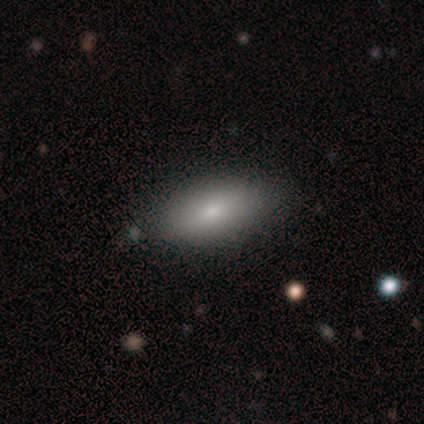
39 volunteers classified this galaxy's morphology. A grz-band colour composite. It shows a smooth galaxy with no disk features (82%) that is in between round and cigar-shaped (91%). Merging: none (59%).